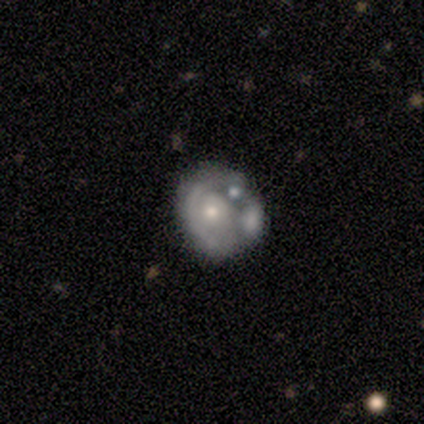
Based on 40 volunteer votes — This appears to be a featured or disk galaxy (82%) with no bar (88%), no spiral arms (55%) and a moderate central bulge (55%). Merging: merger (46%).